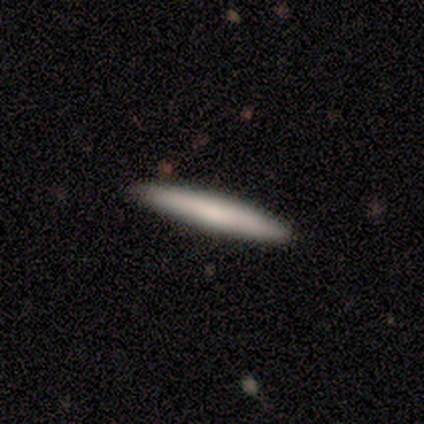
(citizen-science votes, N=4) Morphology: type=smooth (50%, tied with featured or disk); roundness=cigar-shaped (100%); merging=none (100%).